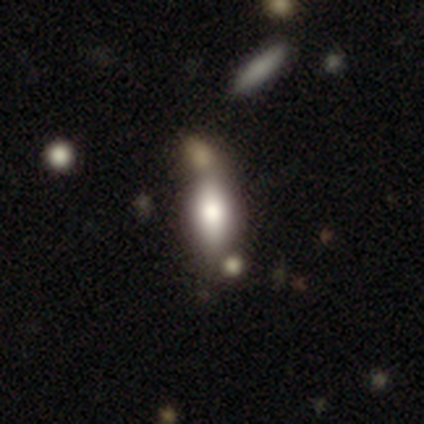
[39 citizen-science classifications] smooth_or_featured: smooth (p=0.72) [alt: featured or disk p=0.18]
how_rounded: in between (p=0.86) [alt: cigar-shaped p=0.11]
merging: none (p=0.43) [alt: merger p=0.37]